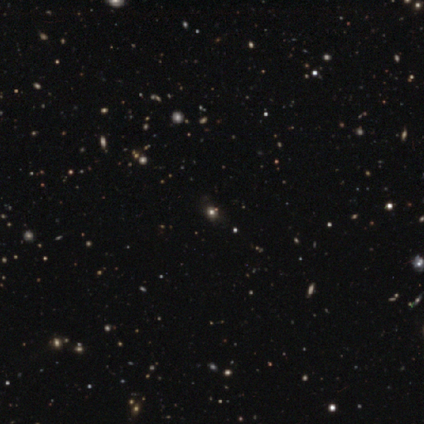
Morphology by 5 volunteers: This is likely a star or artifact rather than a galaxy (60%).